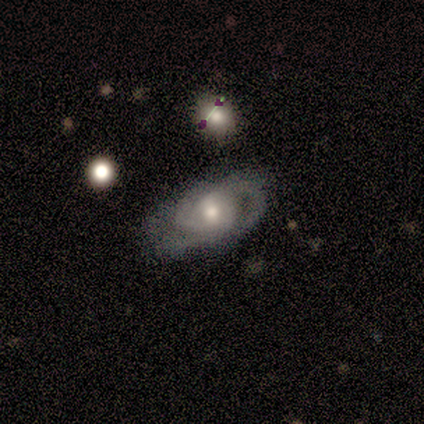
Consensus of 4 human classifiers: Volunteers were most divided on "spiral winding" (2-way tie): tight: 50%, medium: 50%, loose: 0%; "spiral arm count" (2-way tie): 2: 50%, can't tell: 50%, 1: 0%, 3: 0%, 4: 0%, more than 4: 0%; "bulge size" (3-way tie): moderate: 33%, small: 33%, none: 33%, dominant: 0%, large: 0%. More confident: edge-on disk — no (100%); bar — no (100%); merging — none (100%); smooth or featured — featured or disk (75%); spiral arms — yes (67%).